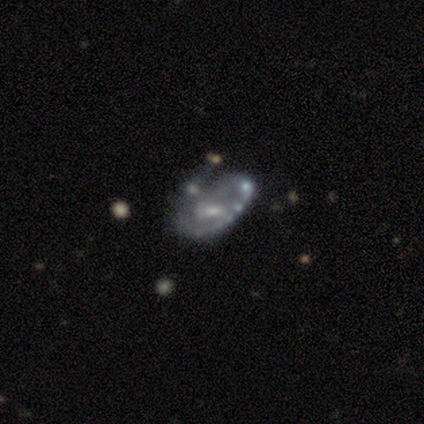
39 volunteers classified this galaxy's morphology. This appears to be a featured or disk galaxy (87%) with a weak bar (56%), 1 (55%) tight (55%) spiral arms (62%) and a small central bulge (50%). Merging: merger (24%).